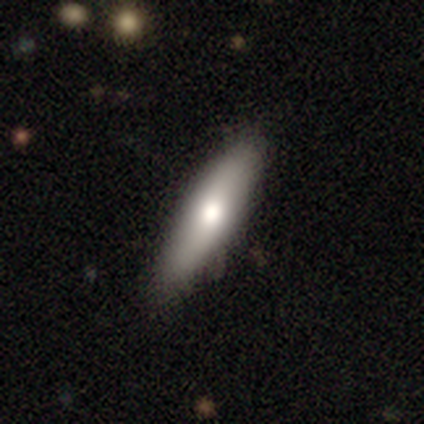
Overall: smooth (80%). How rounded: cigar-shaped (75%). Merging: none (100%).